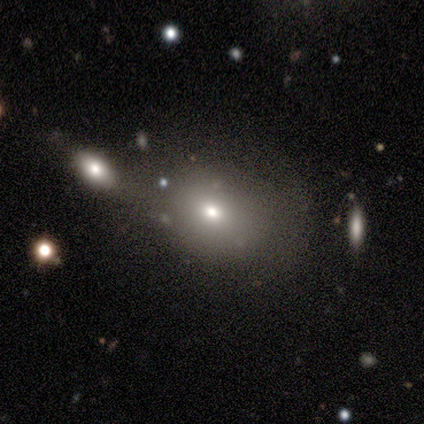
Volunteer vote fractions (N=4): Smooth or featured? 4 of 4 (100%) said smooth. How rounded? 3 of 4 (75%) said round. Merging? 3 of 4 (75%) said none.